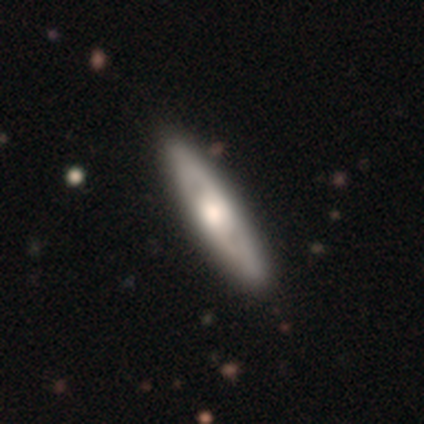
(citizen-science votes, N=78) A featured or disk galaxy (63%) with no bar (74%), no spiral arms (56%) and a large central bulge (52%).

Vote fractions:
- Smooth or featured? featured or disk: 63% / smooth: 28% / star or artifact: 9%
- Edge-on disk? no: 55% / yes: 45%
- Bar? no: 74% / weak: 19% / strong: 7%
- Spiral arms? no: 56% / yes: 44%
- Bulge size? large: 52% / moderate: 44% / dominant: 4% / small: 0% / none: 0%
- Merging? none: 44% / minor disturbance: 7% / merger: 3% / major disturbance: 0%